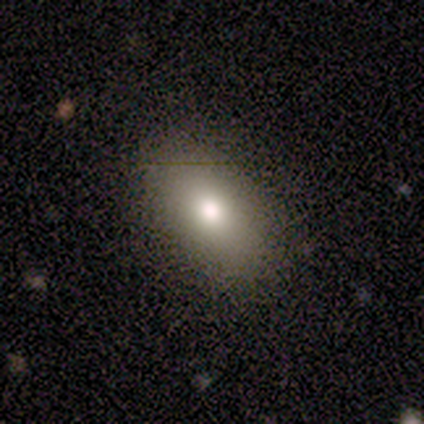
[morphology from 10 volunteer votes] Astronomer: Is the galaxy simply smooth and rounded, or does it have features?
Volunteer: smooth — 70%.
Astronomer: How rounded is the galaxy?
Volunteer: in between — 86%.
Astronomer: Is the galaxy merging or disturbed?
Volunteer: none — 89%.